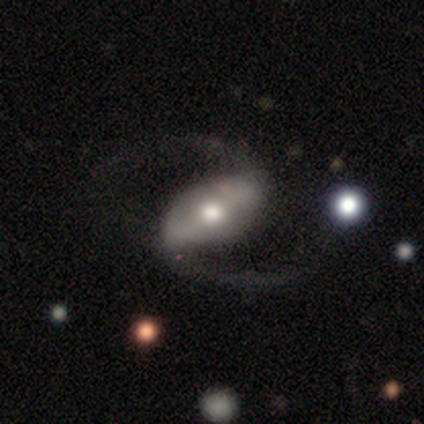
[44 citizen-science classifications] This is clearly a featured or disk galaxy (93%). It is clearly not viewed edge-on (98%). Bar: marginally strong (42%). Spiral arm pattern: clearly yes (100%). Spiral arm count: clearly 2 (95%). Spiral winding: likely loose (72%). Central bulge: likely moderate (78%). Merging: clearly none (84%).